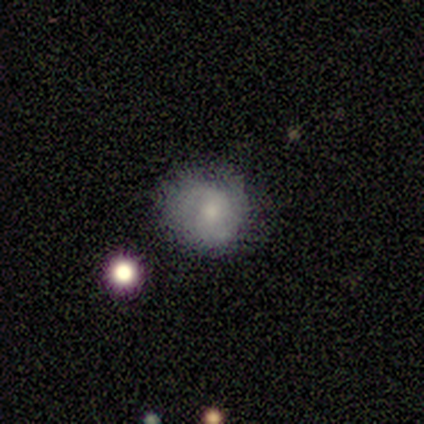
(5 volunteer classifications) Volunteers were most divided on "smooth or featured" (2-way tie): featured or disk: 40%, star or artifact: 40%, smooth: 20%; "bar" (2-way tie): weak: 50%, no: 50%, strong: 0%; "spiral arm count" (2-way tie): 2: 50%, can't tell: 50%, 1: 0%, 3: 0%, 4: 0%, more than 4: 0%; "bulge size" (2-way tie): small: 50%, none: 50%, dominant: 0%, large: 0%, moderate: 0%; "merging" (3-way tie): none: 33%, minor disturbance: 33%, merger: 33%, major disturbance: 0%. More confident: edge-on disk — no (100%); spiral arms — yes (100%); spiral winding — loose (100%).